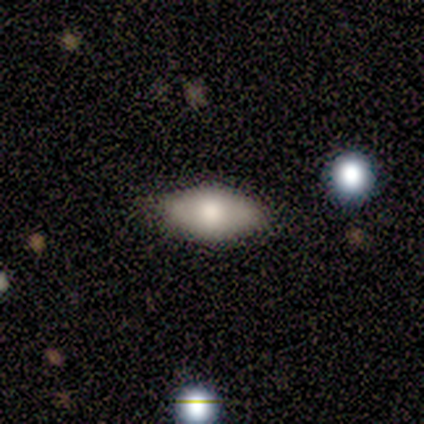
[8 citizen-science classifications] Smooth or featured?
  - smooth: 100% *
  - featured or disk: 0%
  - star or artifact: 0%
How rounded?
  - in between: 100% *
  - round: 0%
  - cigar-shaped: 0%
Merging?
  - none: 88% *
  - minor disturbance: 12%
  - major disturbance: 0%
  - merger: 0%